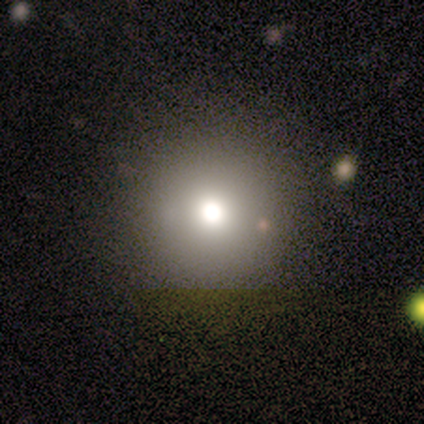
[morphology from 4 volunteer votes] Overall: smooth (50%; featured or disk 25%). How rounded: round (100%). Merging: none (100%).